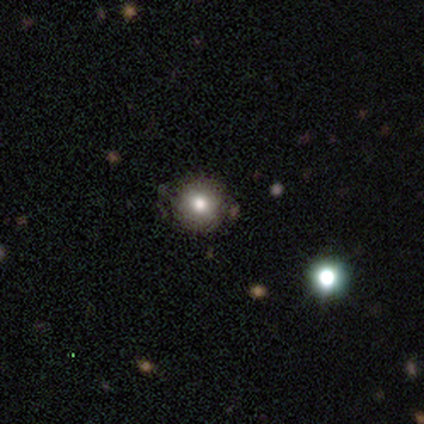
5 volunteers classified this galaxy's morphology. type=smooth (80%); roundness=round (100%); merging=none (100%).